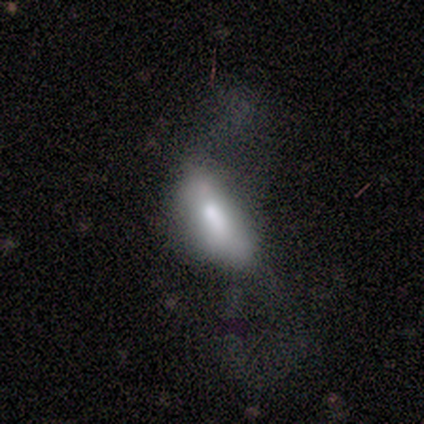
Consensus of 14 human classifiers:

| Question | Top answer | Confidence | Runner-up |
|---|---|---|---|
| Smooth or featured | smooth | 71% | featured or disk (21%) |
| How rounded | in between | 90% | cigar-shaped (10%) |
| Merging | major disturbance | 62% | minor disturbance (38%) |